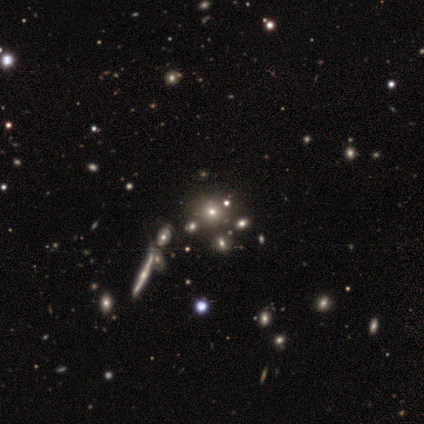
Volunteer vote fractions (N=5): Smooth or featured? 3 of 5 (60%) said smooth. How rounded? 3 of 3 (100%) said round. Merging? 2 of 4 (50%) said none.